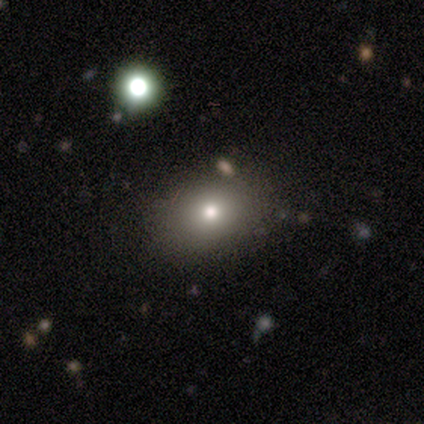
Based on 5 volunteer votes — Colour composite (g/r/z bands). It shows a smooth galaxy with no disk features (80%) that is round (100%). Merging: none (100%).